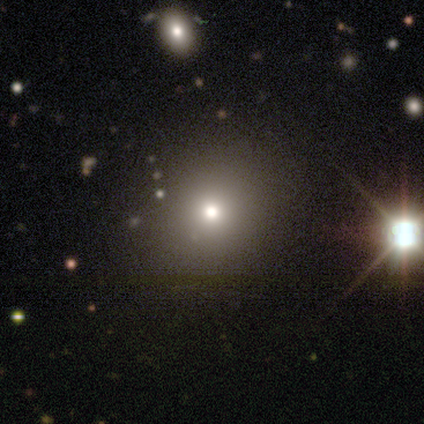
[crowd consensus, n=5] Smooth or featured? smooth (80%)
How rounded? round (50%, tied with in between)
Merging? none (100%)